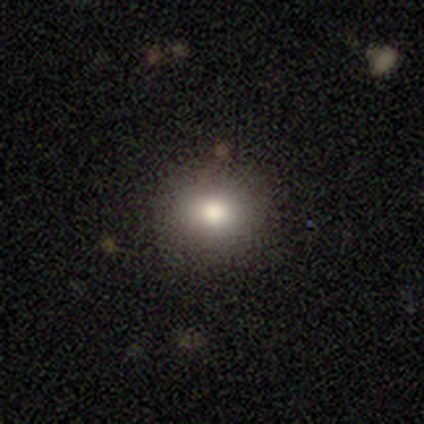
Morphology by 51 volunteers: Smooth or featured: smooth — 88% (featured or disk — 10%)
How rounded: round — 67% (in between — 33%)
Merging: none — 90% (minor disturbance — 8%)